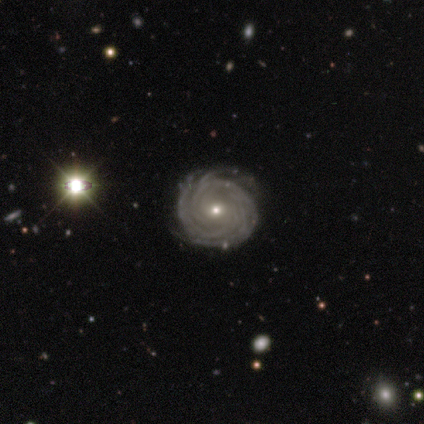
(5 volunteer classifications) Volunteers were most divided on "spiral winding": tight: 60%, medium: 40%, loose: 0%. More confident: smooth or featured — featured or disk (100%); edge-on disk — no (100%); bar — no (100%); spiral arms — yes (100%); merging — none (100%); bulge size — small (80%); spiral arm count — can't tell (60%).